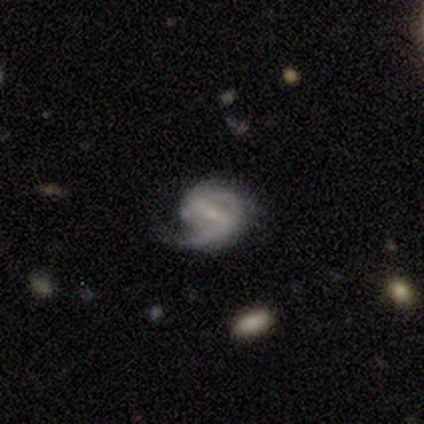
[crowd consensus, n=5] Overall: featured or disk (80%). Edge-on disk: no (100%). Bar: strong (50%, tied with weak). Spiral arms: yes (100%). Spiral arm count: 2 (100%). Spiral winding: medium (50%; tight 25%). Bulge size: small (100%). Merging: none (60%; minor disturbance 20%).